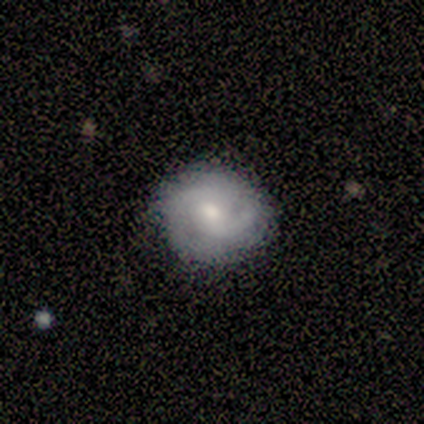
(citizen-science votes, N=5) Morphology: type=smooth (80%); roundness=round (75%); merging=none (100%).